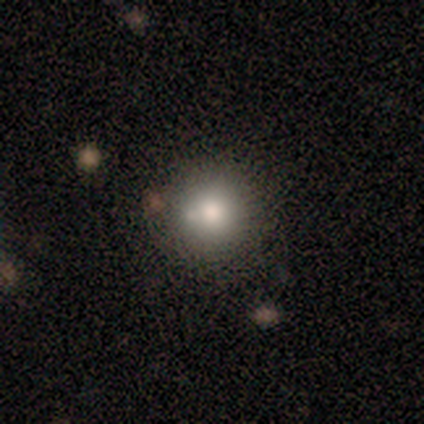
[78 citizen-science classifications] Smooth or featured?
  - smooth: 82% *
  - star or artifact: 12%
  - featured or disk: 6%
How rounded?
  - round: 97% *
  - in between: 3%
  - cigar-shaped: 0%
Merging?
  - none: 49% *
  - merger: 12%
  - minor disturbance: 9%
  - major disturbance: 3%